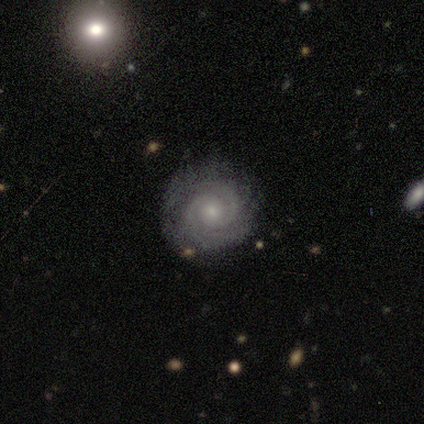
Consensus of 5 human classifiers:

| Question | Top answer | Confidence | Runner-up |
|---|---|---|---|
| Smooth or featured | featured or disk | 100% | — |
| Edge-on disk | no | 100% | — |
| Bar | no | 80% | weak (20%) |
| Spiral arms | yes | 100% | — |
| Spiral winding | tight | 80% | medium (20%) |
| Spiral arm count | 2 | 60% | 3 (40%) |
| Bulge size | small | 80% | moderate (20%) |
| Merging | none | 80% | major disturbance (20%) |